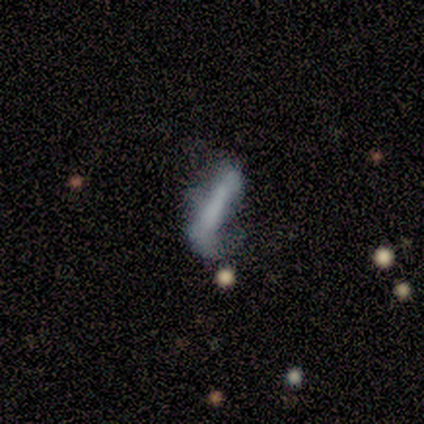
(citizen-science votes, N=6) Smooth or featured: smooth — 50% (tied with featured or disk — 50%)
How rounded: cigar-shaped — 100%
Merging: none — 33% (tied with minor disturbance — 33%; major disturbance — 33%)